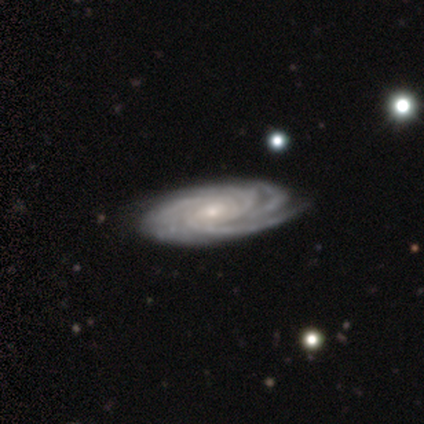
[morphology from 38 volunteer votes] A featured or disk galaxy (97%) with no bar (66%), 4 (49%) tight (71%) spiral arms (100%) and a small central bulge (63%).

Vote fractions:
- Smooth or featured? featured or disk: 97% / star or artifact: 3% / smooth: 0%
- Edge-on disk? no: 95% / yes: 5%
- Bar? no: 66% / weak: 26% / strong: 9%
- Spiral arms? yes: 100% / no: 0%
- Spiral winding? tight: 71% / medium: 26% / loose: 3%
- Spiral arm count? 4: 49% / more than 4: 17% / 3: 14% / can't tell: 14% / 2: 6% / 1: 0%
- Bulge size? small: 63% / moderate: 34% / none: 3% / dominant: 0% / large: 0%
- Merging? none: 62% / minor disturbance: 8% / major disturbance: 0% / merger: 0%